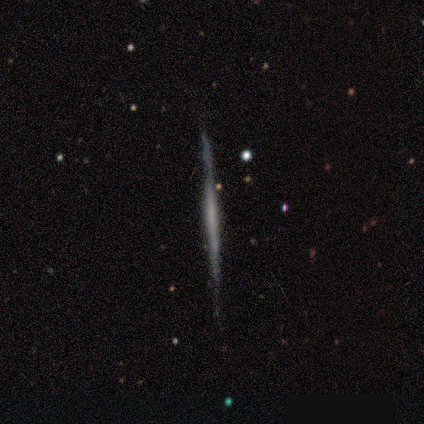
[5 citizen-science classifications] featured or disk 60%, smooth 20%, star or artifact 20%. Down the decision tree: edge-on disk — yes (100%); edge-on bulge — none (67%); merging — none (100%).